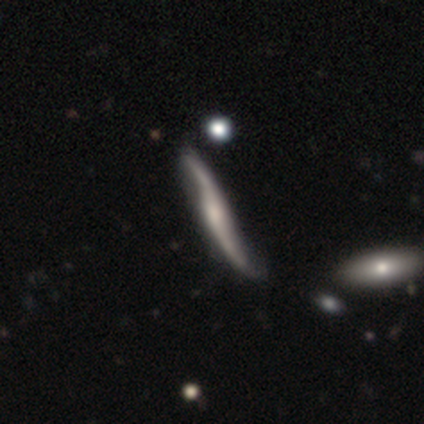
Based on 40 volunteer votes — A featured or disk galaxy (88%) with no bar (61%), 2 (89%) loose (94%) spiral arms (100%) and a small central bulge (50%).

Vote fractions:
- Smooth or featured? featured or disk: 88% / smooth: 10% / star or artifact: 2%
- Edge-on disk? no: 51% / yes: 49%
- Bar? no: 61% / weak: 22% / strong: 17%
- Spiral arms? yes: 100% / no: 0%
- Spiral winding? loose: 94% / medium: 6% / tight: 0%
- Spiral arm count? 2: 89% / can't tell: 11% / 1: 0% / 3: 0% / 4: 0% / more than 4: 0%
- Bulge size? small: 50% / none: 28% / moderate: 17% / large: 6% / dominant: 0%
- Merging? none: 38% / minor disturbance: 10% / merger: 8% / major disturbance: 3%